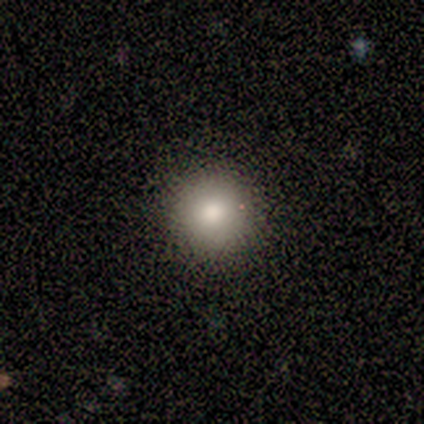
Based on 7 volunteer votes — Smooth or featured? 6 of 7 (86%) said smooth. How rounded? 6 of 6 (100%) said round. Merging? 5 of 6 (83%) said none.